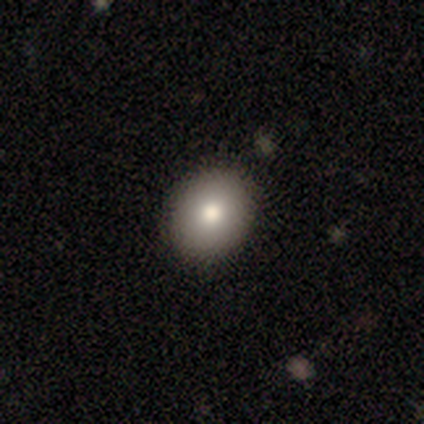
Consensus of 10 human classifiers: smooth_or_featured: smooth (p=0.70) [alt: featured or disk p=0.30]
how_rounded: in between (p=0.57) [alt: round p=0.43]
merging: none (p=0.80) [alt: minor disturbance p=0.20]